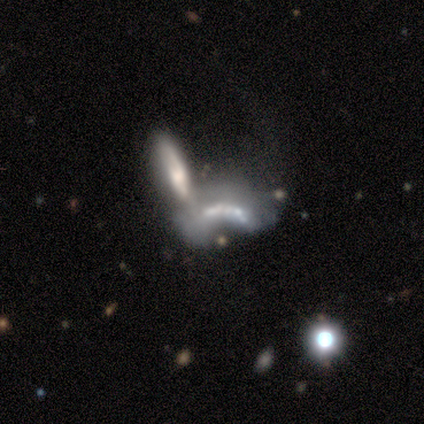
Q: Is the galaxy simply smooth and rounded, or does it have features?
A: featured or disk — 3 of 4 (75%).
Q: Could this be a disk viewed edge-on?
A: yes — 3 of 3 (100%).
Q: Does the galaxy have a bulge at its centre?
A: none — 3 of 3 (100%).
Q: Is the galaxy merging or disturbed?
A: none — 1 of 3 (33%, tied with major disturbance and merger).